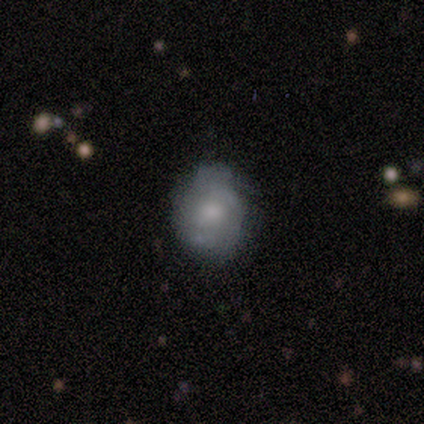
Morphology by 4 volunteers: Overall: smooth (75%). How rounded: round (67%; in between 33%). Merging: none (50%; minor disturbance 25%).